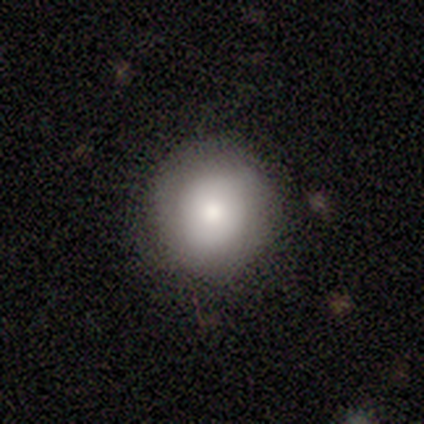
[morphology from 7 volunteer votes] Smooth or featured? smooth (100%)
How rounded? round (86%)
Merging? none (71%)